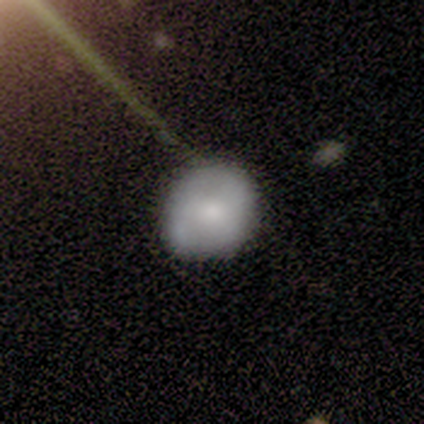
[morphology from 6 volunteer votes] featured or disk 50%, star or artifact 33%, smooth 17%. Down the decision tree: edge-on disk — no (100%); bar — no (67%); spiral arms — yes (67%); spiral arm count — 2 (50%, tied with 3); spiral winding — tight (50%, tied with medium); bulge size — small (67%); merging — minor disturbance (50%).